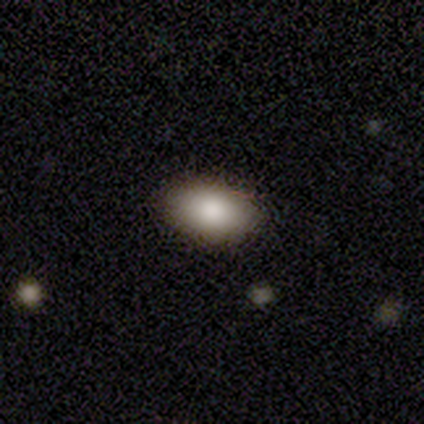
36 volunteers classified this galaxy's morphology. A smooth galaxy with no disk features (89%) that is in between round and cigar-shaped (94%).

Vote fractions:
- Smooth or featured? smooth: 89% / star or artifact: 11% / featured or disk: 0%
- How rounded? in between: 94% / round: 6% / cigar-shaped: 0%
- Merging? none: 91% / minor disturbance: 6% / merger: 3% / major disturbance: 0%